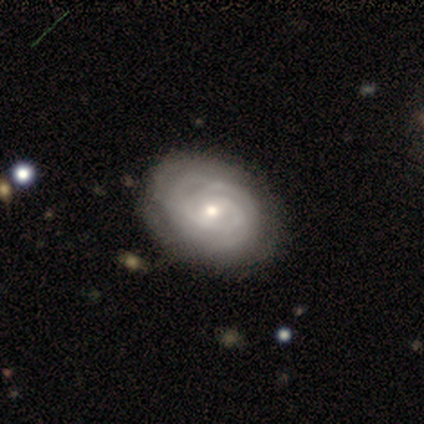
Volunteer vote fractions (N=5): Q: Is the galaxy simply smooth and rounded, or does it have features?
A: featured or disk — 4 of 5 (80%).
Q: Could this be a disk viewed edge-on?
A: no — 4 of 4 (100%).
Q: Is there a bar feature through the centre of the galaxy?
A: no — 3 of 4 (75%).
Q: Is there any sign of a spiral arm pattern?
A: yes — 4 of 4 (100%).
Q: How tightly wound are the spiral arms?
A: tight — 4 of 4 (100%).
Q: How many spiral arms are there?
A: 3 — 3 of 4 (75%).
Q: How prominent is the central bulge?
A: moderate — 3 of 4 (75%).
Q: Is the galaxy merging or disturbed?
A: none — 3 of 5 (60%).